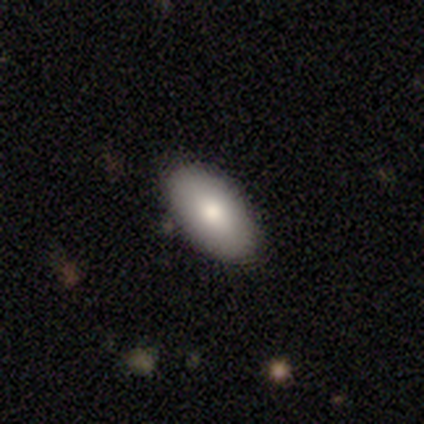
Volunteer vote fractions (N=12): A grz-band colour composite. It shows a smooth galaxy with no disk features (92%) that is in between round and cigar-shaped (100%). Merging: none (92%).